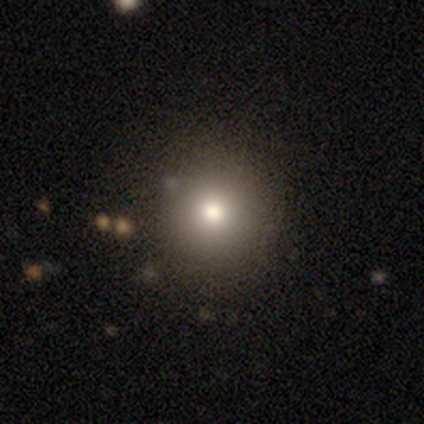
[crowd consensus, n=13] Morphology: type=smooth (62%); roundness=round (75%); merging=none (91%).